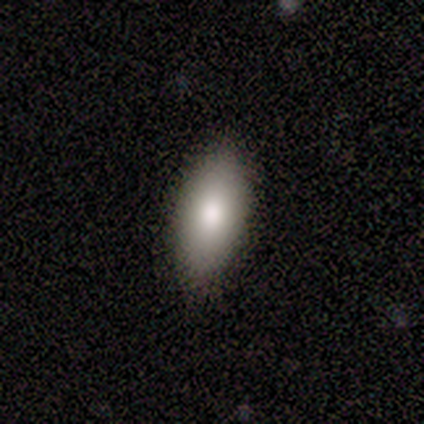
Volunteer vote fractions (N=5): Smooth or featured? smooth (100%)
How rounded? in between (60%)
Merging? none (60%)